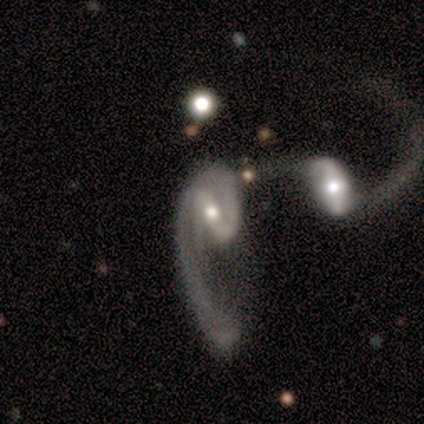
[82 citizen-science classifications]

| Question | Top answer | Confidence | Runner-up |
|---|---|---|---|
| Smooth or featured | featured or disk | 94% | star or artifact (5%) |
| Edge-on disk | no | 97% | yes (3%) |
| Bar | strong | 49% | weak (33%) |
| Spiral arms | yes | 93% | no (7%) |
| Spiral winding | loose | 56% | medium (33%) |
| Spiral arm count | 2 | 59% | 1 (31%) |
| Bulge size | moderate | 69% | small (28%) |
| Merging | merger | 62% | major disturbance (32%) |